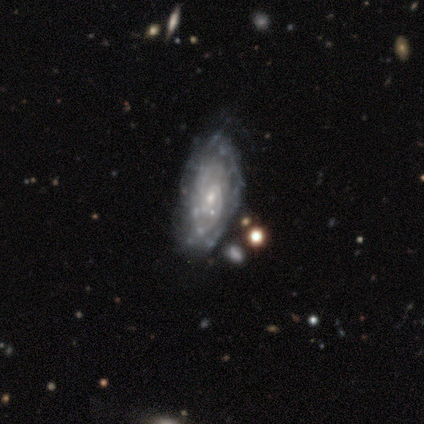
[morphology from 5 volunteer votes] Q: Smooth or featured?
A: featured or disk (100%)
Q: Edge-on disk?
A: no (100%)
Q: Bar?
A: weak (60%); runner-up: no (40%)
Q: Spiral arms?
A: yes (100%)
Q: Spiral winding?
A: medium (80%); runner-up: tight (20%)
Q: Spiral arm count?
A: 2 (60%); runner-up: more than 4 (20%)
Q: Bulge size?
A: small (100%)
Q: Merging?
A: none (80%); runner-up: major disturbance (20%)